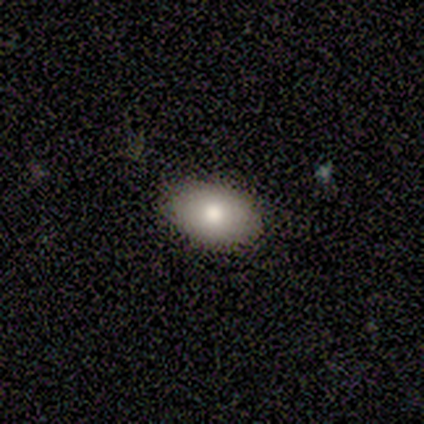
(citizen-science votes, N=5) smooth 60%, featured or disk 20%, star or artifact 20%. Down the decision tree: how rounded — in between (100%); merging — none (100%).